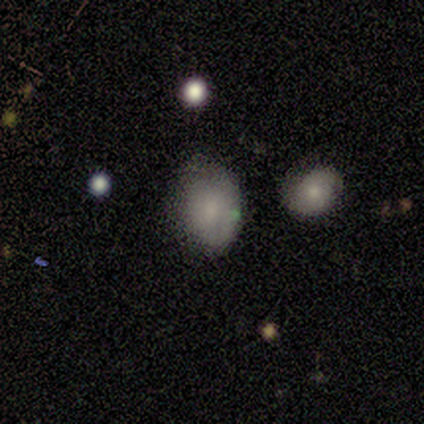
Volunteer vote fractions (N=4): smooth 100%, featured or disk 0%, star or artifact 0%. Down the decision tree: how rounded — in between (100%); merging — minor disturbance (100%).